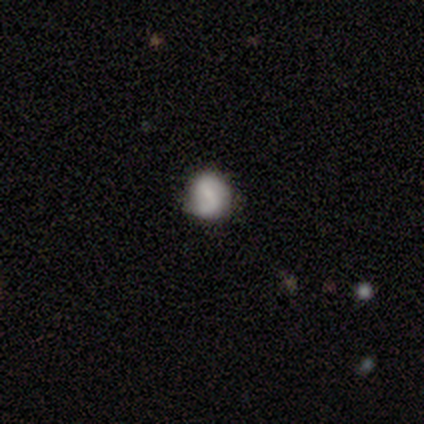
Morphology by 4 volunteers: Smooth or featured: smooth — 50% (featured or disk — 25%)
How rounded: round — 100%
Merging: minor disturbance — 67% (none — 33%)